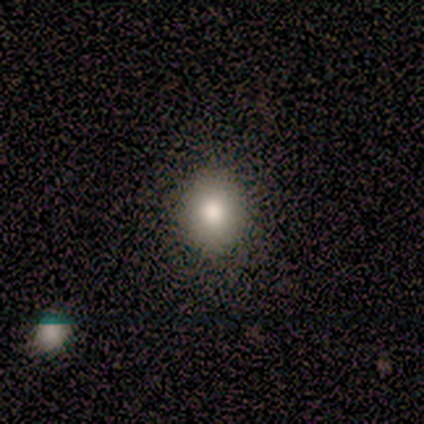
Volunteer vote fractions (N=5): Q: Smooth or featured?
A: smooth (80%); runner-up: star or artifact (20%)
Q: How rounded?
A: round (100%)
Q: Merging?
A: none (100%)